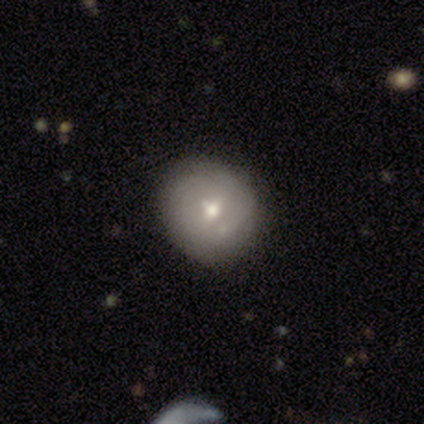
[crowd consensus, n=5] This is likely a featured or disk galaxy (60%). It is clearly not viewed edge-on (100%). Bar: likely no (67%). Spiral arm pattern: likely no (67%). Central bulge: likely small (67%). Merging: likely none (60%).